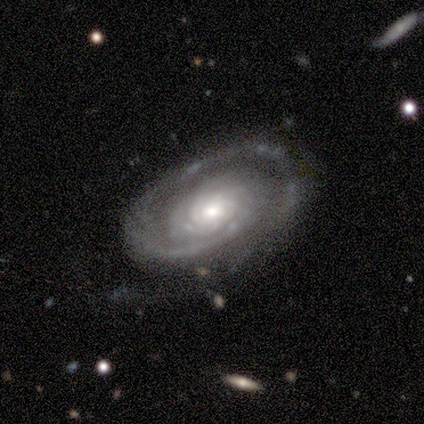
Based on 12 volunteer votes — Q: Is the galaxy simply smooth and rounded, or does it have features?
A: featured or disk — 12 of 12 (100%).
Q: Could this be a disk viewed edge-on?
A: no — 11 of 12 (92%).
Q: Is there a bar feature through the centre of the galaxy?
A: no — 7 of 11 (64%).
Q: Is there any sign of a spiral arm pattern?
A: yes — 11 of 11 (100%).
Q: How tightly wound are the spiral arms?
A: tight — 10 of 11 (91%).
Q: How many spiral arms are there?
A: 1 — 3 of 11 (27%, tied with more than 4).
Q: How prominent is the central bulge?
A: moderate — 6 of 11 (55%).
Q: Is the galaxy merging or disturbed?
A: none — 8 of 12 (67%).